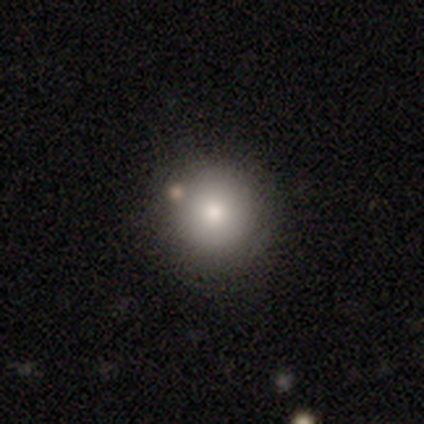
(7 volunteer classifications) smooth 100%, featured or disk 0%, star or artifact 0%. Down the decision tree: how rounded — round (100%); merging — none (100%).